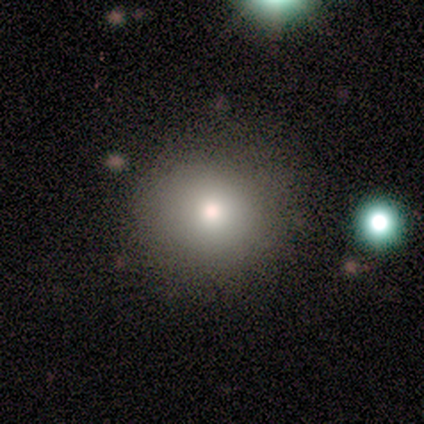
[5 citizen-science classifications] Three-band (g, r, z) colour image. It shows a smooth galaxy with no disk features (100%) that is round (100%). Merging: none (80%).